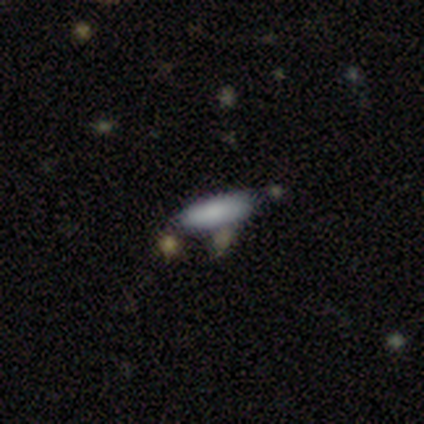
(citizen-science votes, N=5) Smooth or featured? 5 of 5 (100%) said smooth. How rounded? 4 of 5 (80%) said in between. Merging? 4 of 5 (80%) said none.